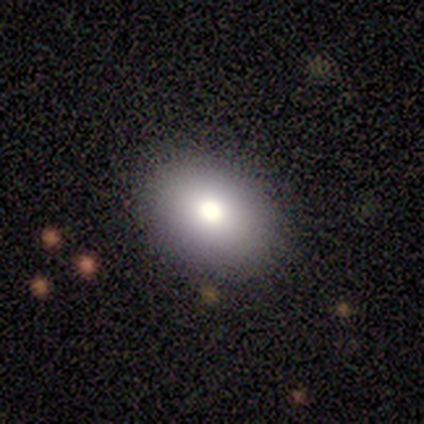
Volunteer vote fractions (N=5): smooth_or_featured: smooth (p=0.80) [alt: featured or disk p=0.20]
how_rounded: in between (p=1.00)
merging: none (p=0.80) [alt: minor disturbance p=0.20]